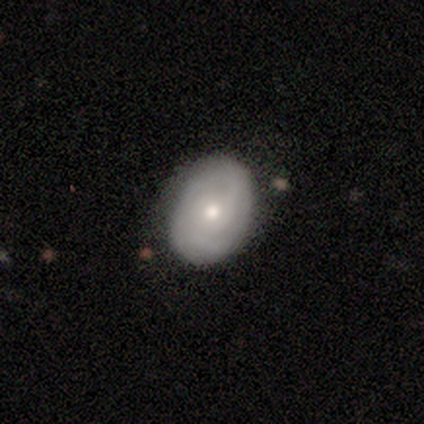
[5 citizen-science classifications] Smooth or featured? 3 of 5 (60%) said smooth. How rounded? 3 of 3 (100%) said in between. Merging? 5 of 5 (100%) said none.